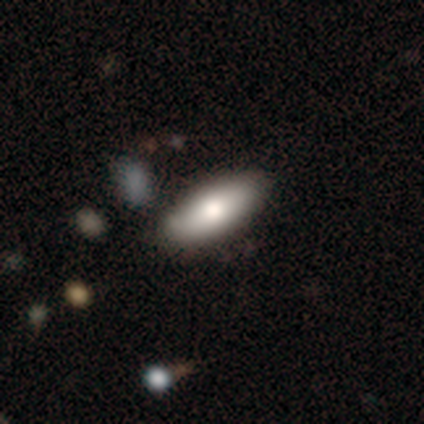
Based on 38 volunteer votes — Smooth or featured?
  - smooth: 74% *
  - featured or disk: 26%
  - star or artifact: 0%
How rounded?
  - in between: 79% *
  - cigar-shaped: 21%
  - round: 0%
Merging?
  - none: 47% *
  - merger: 11%
  - minor disturbance: 5%
  - major disturbance: 3%